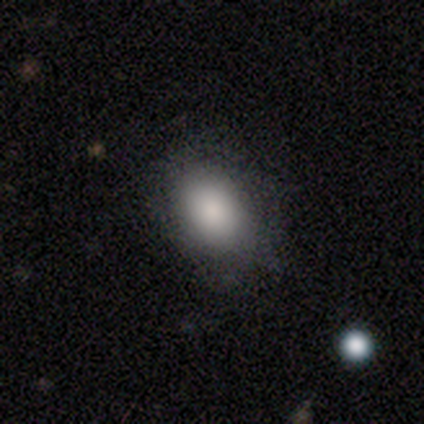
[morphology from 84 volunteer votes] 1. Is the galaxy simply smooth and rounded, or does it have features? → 89% smooth, 7% featured or disk, 4% star or artifact.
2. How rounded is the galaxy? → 83% in between, 17% round, 0% cigar-shaped.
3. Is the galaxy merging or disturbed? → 72% none, 20% minor disturbance, 7% major disturbance, 1% merger.